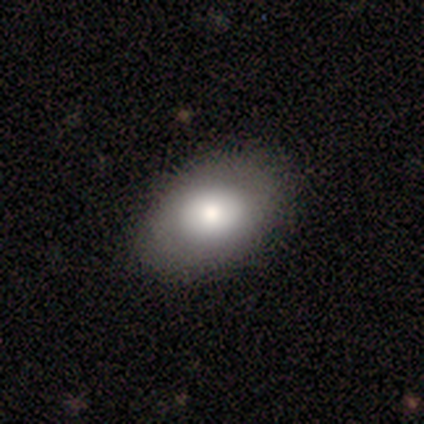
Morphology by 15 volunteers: smooth_or_featured: smooth (p=0.67) [alt: featured or disk p=0.33]
how_rounded: in between (p=0.80) [alt: round p=0.20]
merging: none (p=0.87) [alt: minor disturbance p=0.13]